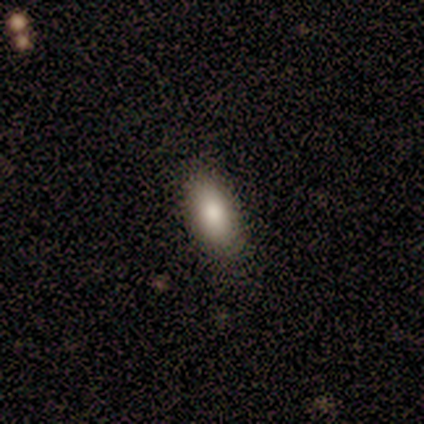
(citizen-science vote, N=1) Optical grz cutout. It shows a smooth galaxy with no disk features (100%) that is in between round and cigar-shaped (100%). Merging: none (100%).